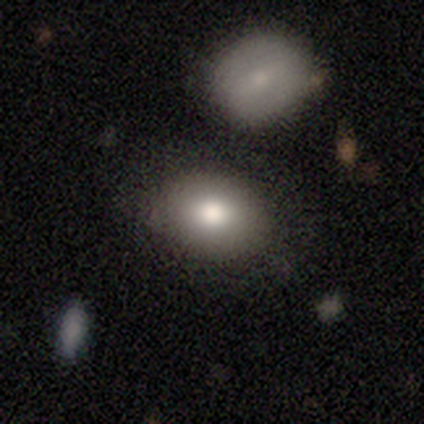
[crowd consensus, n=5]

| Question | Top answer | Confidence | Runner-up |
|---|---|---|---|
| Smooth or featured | smooth | 80% | featured or disk (20%) |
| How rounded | in between | 100% | — |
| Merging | none | 100% | — |